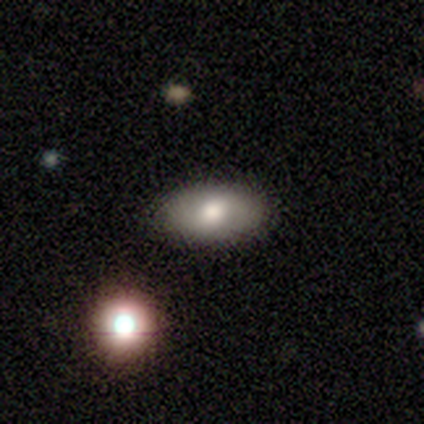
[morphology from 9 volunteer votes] A smooth galaxy with no disk features (78%) that is in between round and cigar-shaped (86%).

Vote fractions:
- Smooth or featured? smooth: 78% / featured or disk: 22% / star or artifact: 0%
- How rounded? in between: 86% / round: 14% / cigar-shaped: 0%
- Merging? none: 56% / minor disturbance: 22% / major disturbance: 11% / merger: 11%